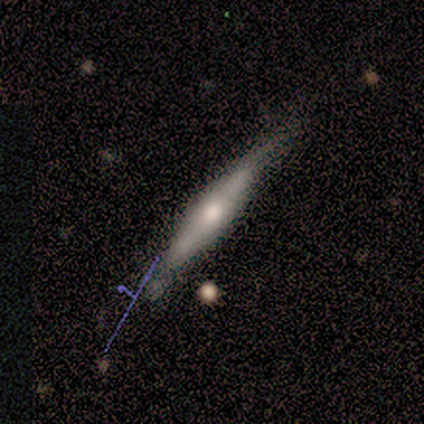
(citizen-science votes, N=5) smooth_or_featured: featured or disk (p=0.60) [alt: smooth p=0.20]
disk_edge_on: yes (p=1.00)
edge_on_bulge: rounded (p=1.00)
merging: none (p=0.50) [tied with: minor disturbance p=0.50]